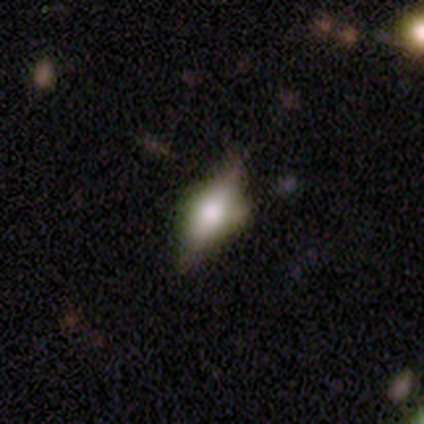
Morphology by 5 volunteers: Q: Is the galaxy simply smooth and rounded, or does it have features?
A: featured or disk — 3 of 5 (60%).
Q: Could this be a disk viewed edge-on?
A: yes — 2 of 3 (67%).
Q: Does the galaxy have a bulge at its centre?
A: boxy — 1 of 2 (50%, tied with rounded).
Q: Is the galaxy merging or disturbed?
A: none — 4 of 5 (80%).